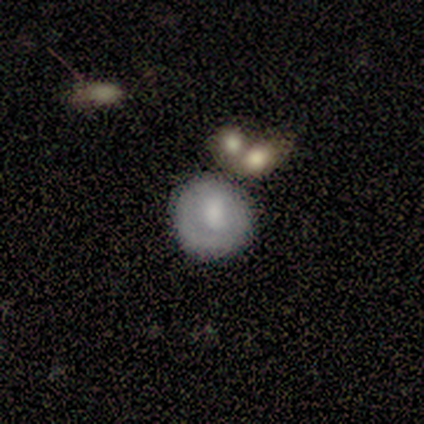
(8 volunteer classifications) Overall: smooth (75%). How rounded: round (100%). Merging: none (88%).